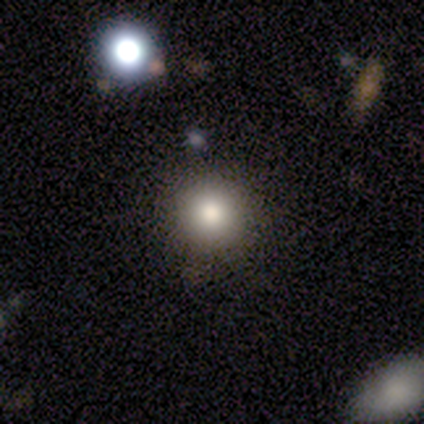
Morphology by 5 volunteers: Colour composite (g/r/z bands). It shows a smooth galaxy with no disk features (80%) that is round (100%). Merging: none (100%).